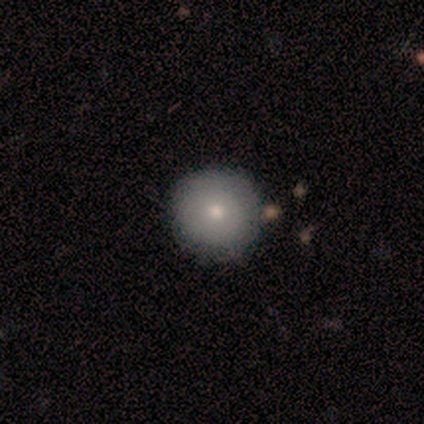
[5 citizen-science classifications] This appears to be a smooth galaxy with no disk features (80%) that is round (100%). Merging: none (80%).